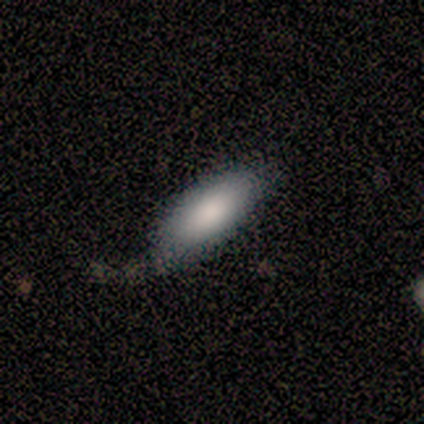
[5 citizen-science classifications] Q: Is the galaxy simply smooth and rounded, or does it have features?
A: smooth — 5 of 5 (100%).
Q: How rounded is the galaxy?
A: in between — 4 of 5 (80%).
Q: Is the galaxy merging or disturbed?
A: none — 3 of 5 (60%).